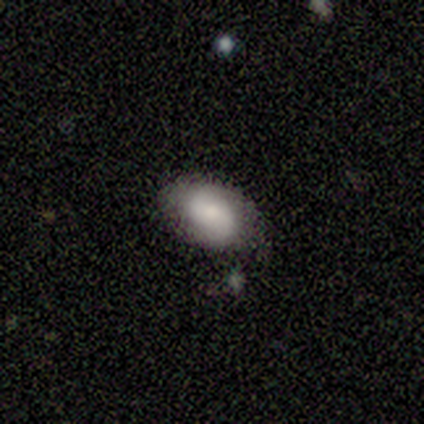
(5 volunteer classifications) Morphology: type=featured or disk (60%); edge-on=no (100%); bar=no (67%); spiral arms=yes (67%); winding=tight (100%); arm count=2 (100%); bulge=small (67%); merging=none (60%).